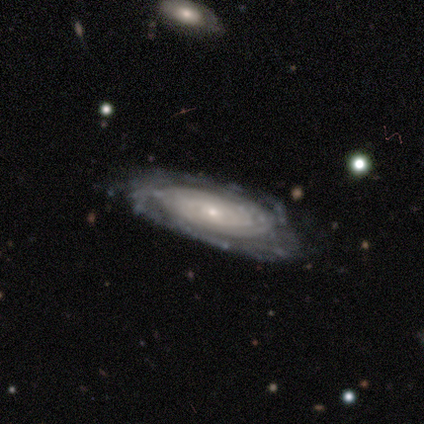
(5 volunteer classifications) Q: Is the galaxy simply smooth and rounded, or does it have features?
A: featured or disk — 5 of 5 (100%).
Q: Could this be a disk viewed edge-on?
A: no — 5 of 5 (100%).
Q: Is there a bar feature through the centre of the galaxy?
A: no — 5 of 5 (100%).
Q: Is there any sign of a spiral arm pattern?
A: yes — 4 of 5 (80%).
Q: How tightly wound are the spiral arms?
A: tight — 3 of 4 (75%).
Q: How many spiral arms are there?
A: can't tell — 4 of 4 (100%).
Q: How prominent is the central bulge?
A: small — 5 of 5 (100%).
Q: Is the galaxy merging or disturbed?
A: none — 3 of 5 (60%).